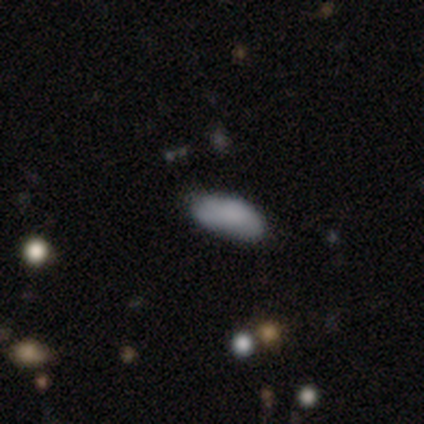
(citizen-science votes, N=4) smooth-or-featured: smooth: 100% | featured or disk: 0% | star or artifact: 0%
  how-rounded: in between: 100% | round: 0% | cigar-shaped: 0%
  merging: none: 100% | minor disturbance: 0% | major disturbance: 0% | merger: 0%